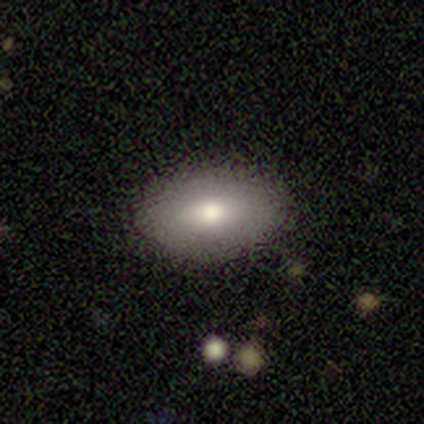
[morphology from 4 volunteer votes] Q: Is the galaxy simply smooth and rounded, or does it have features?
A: smooth — 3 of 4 (75%).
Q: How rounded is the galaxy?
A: in between — 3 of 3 (100%).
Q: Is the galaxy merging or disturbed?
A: none — 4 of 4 (100%).